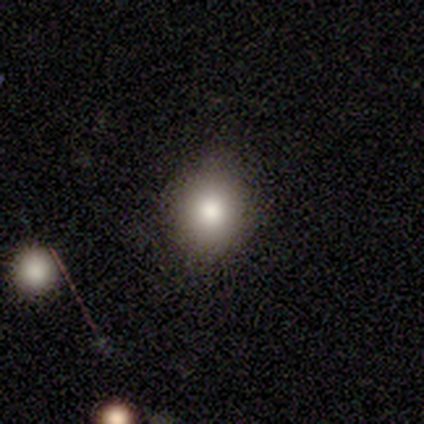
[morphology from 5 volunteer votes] Smooth or featured?
  - smooth: 80% *
  - star or artifact: 20%
  - featured or disk: 0%
How rounded?
  - round: 75% *
  - in between: 25%
  - cigar-shaped: 0%
Merging?
  - none: 75% *
  - minor disturbance: 25%
  - major disturbance: 0%
  - merger: 0%